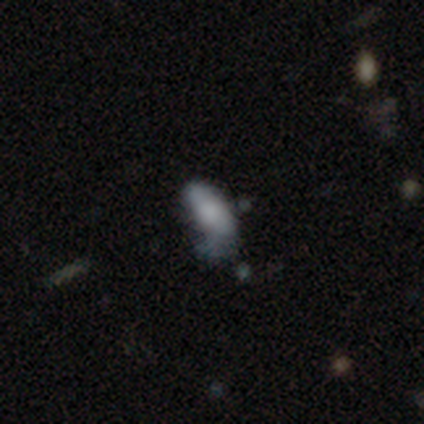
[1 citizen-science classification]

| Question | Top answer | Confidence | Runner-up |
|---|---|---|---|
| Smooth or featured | featured or disk | 100% | — |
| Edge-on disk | no | 100% | — |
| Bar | no | 100% | — |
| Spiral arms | no | 100% | — |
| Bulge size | large | 100% | — |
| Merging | minor disturbance | 100% | — |